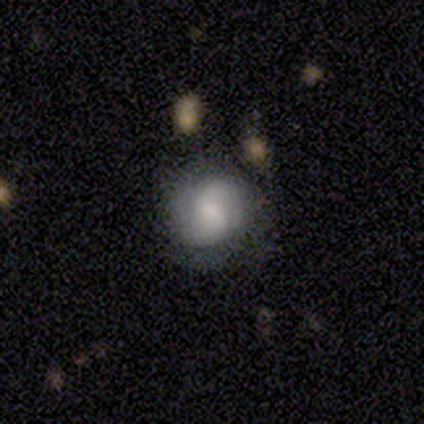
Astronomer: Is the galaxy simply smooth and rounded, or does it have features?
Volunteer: smooth — 64%.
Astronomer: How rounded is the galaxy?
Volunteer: round — 84%.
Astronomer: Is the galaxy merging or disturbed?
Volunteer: none — 65%.